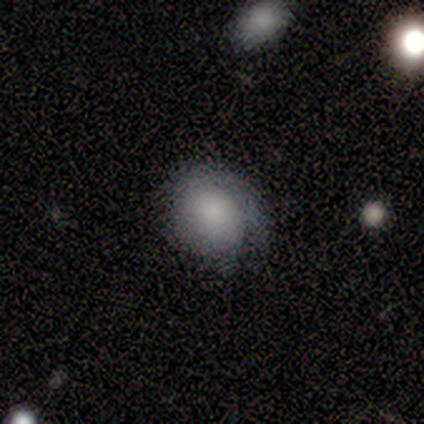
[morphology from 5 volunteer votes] This is clearly a smooth galaxy (100%). How rounded: likely round (60%). Merging: clearly none (80%).